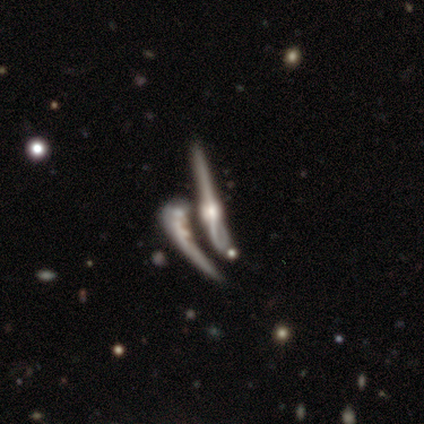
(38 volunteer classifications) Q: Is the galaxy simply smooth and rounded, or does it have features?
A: featured or disk — 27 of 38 (71%).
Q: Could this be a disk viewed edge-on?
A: yes — 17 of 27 (63%).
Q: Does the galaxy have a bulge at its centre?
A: rounded — 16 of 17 (94%).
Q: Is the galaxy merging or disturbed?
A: merger — 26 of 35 (74%).